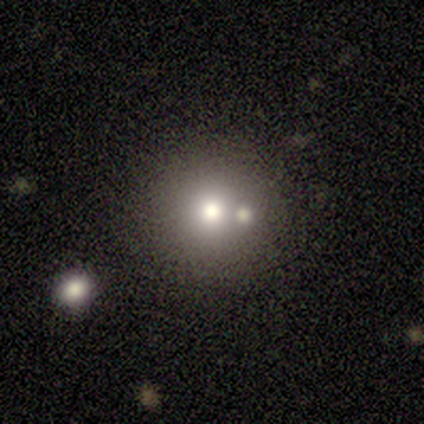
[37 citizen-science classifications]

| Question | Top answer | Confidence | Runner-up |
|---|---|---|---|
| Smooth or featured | smooth | 51% | star or artifact (32%) |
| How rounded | round | 100% | — |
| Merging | none | 60% | merger (28%) |